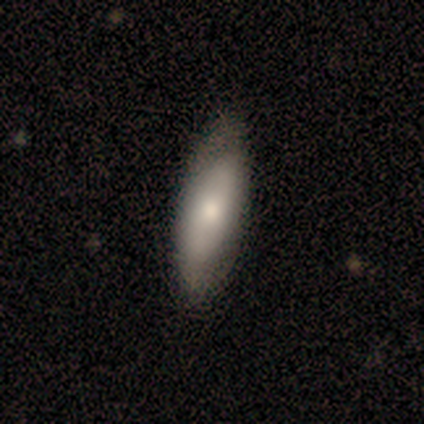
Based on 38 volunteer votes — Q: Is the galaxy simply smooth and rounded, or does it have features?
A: smooth — 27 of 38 (71%).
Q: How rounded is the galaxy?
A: in between — 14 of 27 (52%).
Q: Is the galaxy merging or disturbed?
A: none — 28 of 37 (76%).